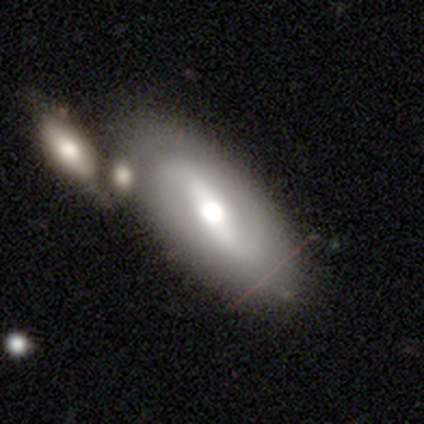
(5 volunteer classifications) Overall: featured or disk (60%; smooth 40%). Edge-on disk: no (100%). Bar: strong (100%). Spiral arms: yes (67%; no 33%). Spiral arm count: 2 (100%). Spiral winding: medium (50%, tied with loose). Bulge size: large (67%; moderate 33%). Merging: none (40%; minor disturbance 20%).